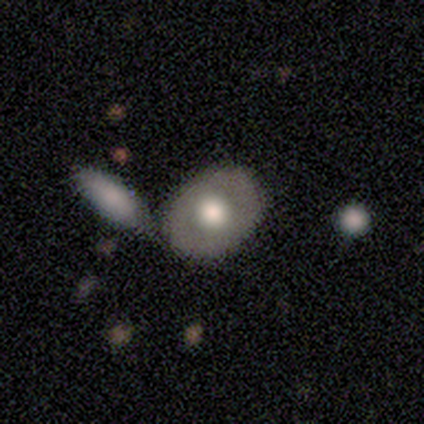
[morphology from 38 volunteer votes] Overall: smooth (53%; featured or disk 47%). How rounded: round (50%, tied with in between). Merging: none (50%; merger 37%).